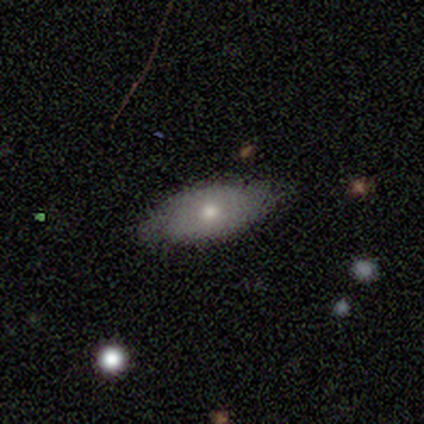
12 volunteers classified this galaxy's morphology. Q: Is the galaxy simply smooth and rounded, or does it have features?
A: smooth — 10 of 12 (83%).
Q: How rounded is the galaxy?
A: in between — 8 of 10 (80%).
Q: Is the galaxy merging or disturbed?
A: none — 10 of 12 (83%).